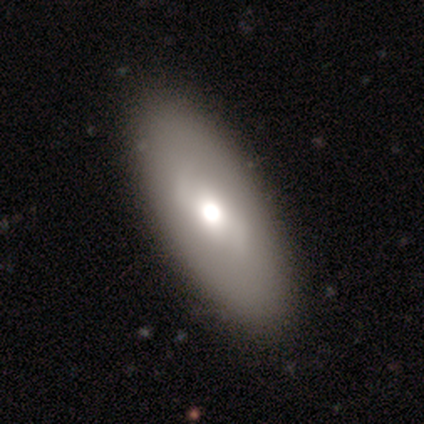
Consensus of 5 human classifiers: A smooth galaxy with no disk features (60%) that is in between round and cigar-shaped (67%).

Vote fractions:
- Smooth or featured? smooth: 60% / featured or disk: 40% / star or artifact: 0%
- How rounded? in between: 67% / round: 33% / cigar-shaped: 0%
- Merging? none: 60% / minor disturbance: 40% / major disturbance: 0% / merger: 0%